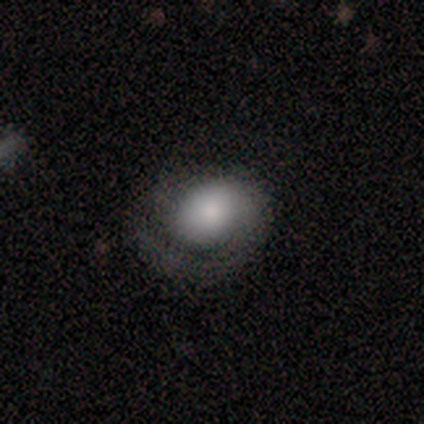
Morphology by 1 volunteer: smooth_or_featured: featured or disk (p=1.00)
disk_edge_on: no (p=1.00)
bar: no (p=1.00)
has_spiral_arms: no (p=1.00)
bulge_size: dominant (p=1.00)
merging: minor disturbance (p=1.00)